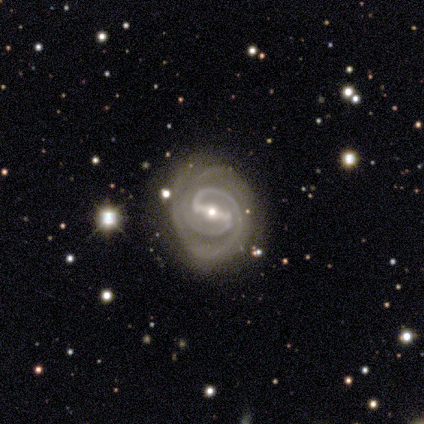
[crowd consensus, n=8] Smooth or featured: featured or disk — 88% (star or artifact — 12%)
Edge-on disk: no — 100%
Bar: strong — 100%
Spiral arms: yes — 100%
Spiral winding: tight — 57% (medium — 29%)
Spiral arm count: 2 — 86% (3 — 14%)
Bulge size: small — 57% (moderate — 43%)
Merging: none — 71% (minor disturbance — 14%)